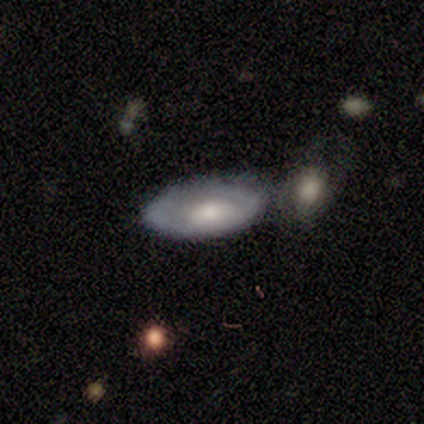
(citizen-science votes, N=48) This appears to be a featured or disk galaxy (54%) with no bar (91%), no spiral arms (82%) and a moderate central bulge (50%). Merging: none (60%).